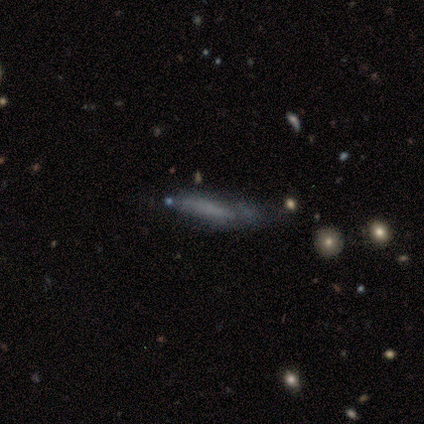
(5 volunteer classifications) Volunteers were most divided on "merging" (4-way tie): none: 25%, minor disturbance: 25%, major disturbance: 25%, merger: 25%. More confident: edge-on disk — yes (100%); edge-on bulge — none (67%); smooth or featured — featured or disk (60%).